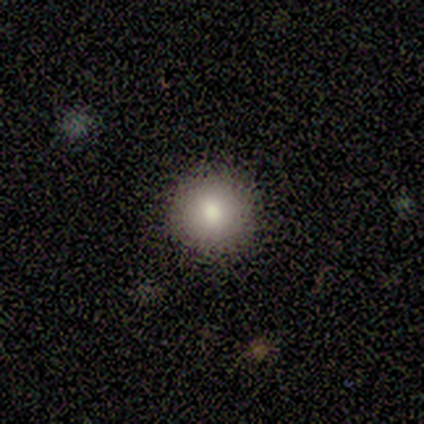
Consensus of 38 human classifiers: Smooth or featured? 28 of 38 (74%) said smooth. How rounded? 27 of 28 (96%) said round. Merging? 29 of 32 (91%) said none.